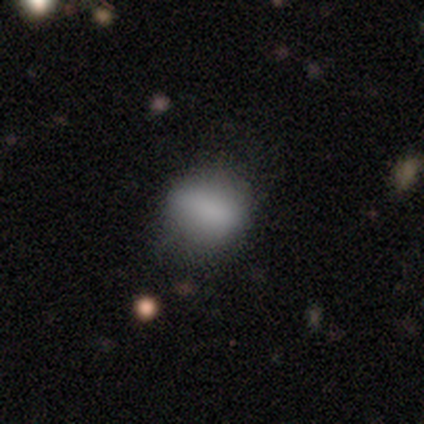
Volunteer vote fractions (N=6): This appears to be a smooth galaxy with no disk features (83%) that is round (60%). Merging: none (60%).